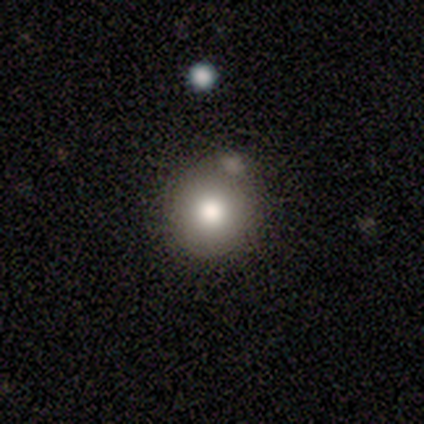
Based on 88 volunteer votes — Morphology: type=smooth (82%); roundness=round (99%); merging=none (60%).